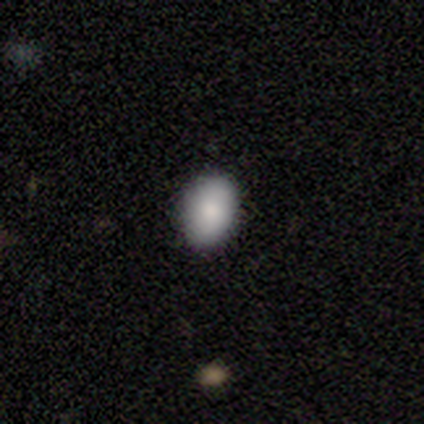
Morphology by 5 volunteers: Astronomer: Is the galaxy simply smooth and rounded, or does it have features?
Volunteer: smooth — 100%.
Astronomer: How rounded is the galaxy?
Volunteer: in between — 60% (runner-up: round, 40%).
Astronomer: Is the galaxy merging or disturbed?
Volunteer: none — 100%.